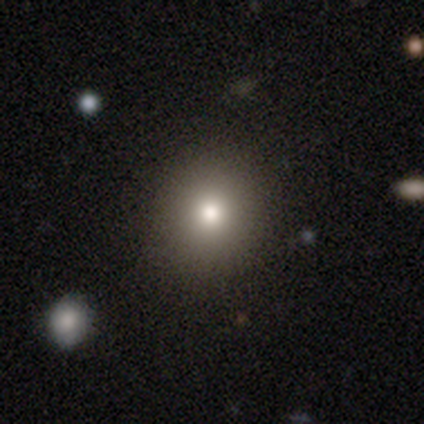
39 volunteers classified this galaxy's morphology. This appears to be a smooth galaxy with no disk features (90%) that is round (94%). Merging: none (92%).